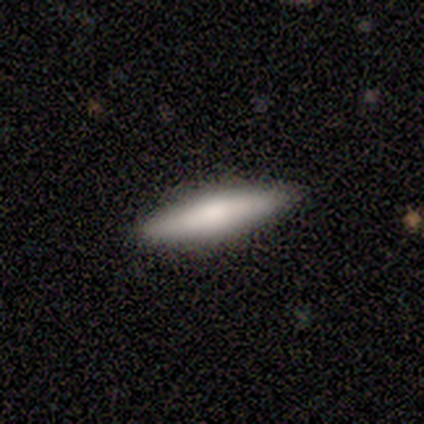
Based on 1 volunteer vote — Smooth or featured? smooth (100%)
How rounded? cigar-shaped (100%)
Merging? merger (100%)